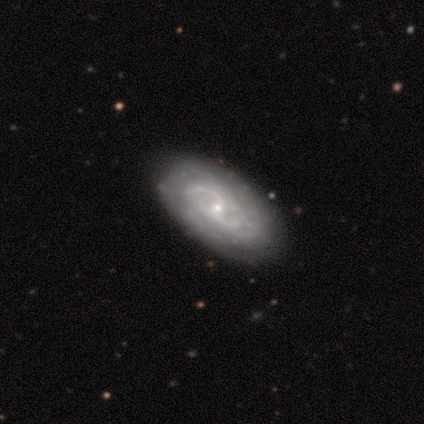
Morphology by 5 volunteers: Smooth or featured: featured or disk — 80% (star or artifact — 20%)
Edge-on disk: no — 100%
Bar: weak — 50% (tied with no — 50%)
Spiral arms: yes — 75% (no — 25%)
Spiral winding: medium — 67% (loose — 33%)
Spiral arm count: 2 — 67% (can't tell — 33%)
Bulge size: small — 100%
Merging: none — 75% (minor disturbance — 25%)